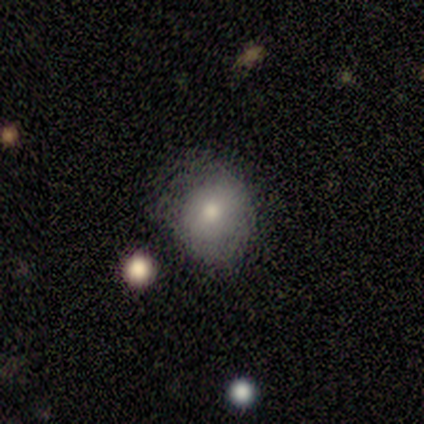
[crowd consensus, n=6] smooth-or-featured: smooth: 83% | featured or disk: 17% | star or artifact: 0%
  how-rounded: round: 60% | in between: 40% | cigar-shaped: 0%
  merging: none: 67% | major disturbance: 17% | merger: 17% | minor disturbance: 0%